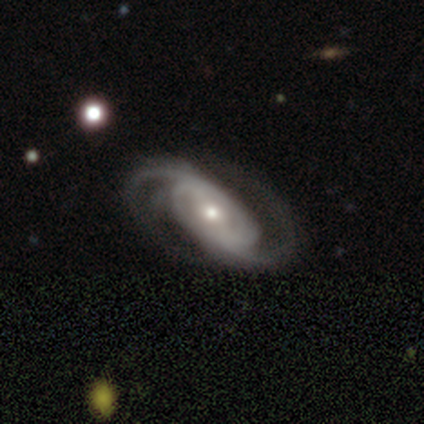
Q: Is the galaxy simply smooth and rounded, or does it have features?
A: featured or disk — 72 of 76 (95%).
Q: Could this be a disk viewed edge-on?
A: no — 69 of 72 (96%).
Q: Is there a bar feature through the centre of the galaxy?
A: no — 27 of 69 (39%).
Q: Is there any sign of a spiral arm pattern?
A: yes — 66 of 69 (96%).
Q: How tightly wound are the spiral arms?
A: medium — 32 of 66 (48%).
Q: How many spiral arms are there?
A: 2 — 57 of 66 (86%).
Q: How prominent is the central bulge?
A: moderate — 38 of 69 (55%).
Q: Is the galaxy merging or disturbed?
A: none — 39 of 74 (53%).